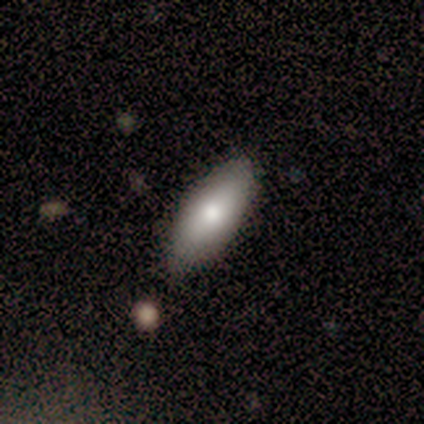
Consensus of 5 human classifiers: A smooth galaxy with no disk features (80%) that is in between round and cigar-shaped (75%).

Vote fractions:
- Smooth or featured? smooth: 80% / featured or disk: 20% / star or artifact: 0%
- How rounded? in between: 75% / cigar-shaped: 25% / round: 0%
- Merging? none: 80% / minor disturbance: 20% / major disturbance: 0% / merger: 0%